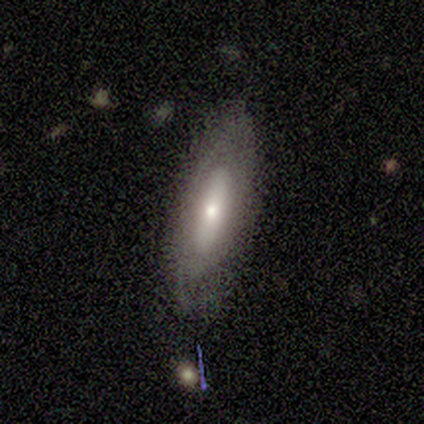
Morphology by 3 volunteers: smooth-or-featured: featured or disk: 67% | star or artifact: 33% | smooth: 0%
  disk-edge-on: no: 100% | yes: 0%
    bar: weak: 50% (tied) | no: 50% (tied) | strong: 0%
    has-spiral-arms: yes: 100% | no: 0%
      spiral-winding: tight: 100% | medium: 0% | loose: 0%
      spiral-arm-count: 2: 50% (tied) | can't tell: 50% (tied) | 1: 0% | 3: 0% | 4: 0% | more than 4: 0%
    bulge-size: moderate: 50% (tied) | none: 50% (tied) | dominant: 0% | large: 0% | small: 0%
  merging: none: 100% | minor disturbance: 0% | major disturbance: 0% | merger: 0%